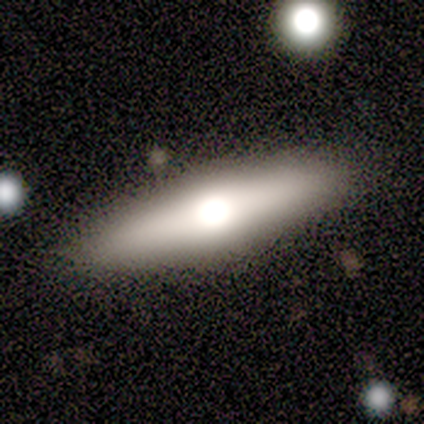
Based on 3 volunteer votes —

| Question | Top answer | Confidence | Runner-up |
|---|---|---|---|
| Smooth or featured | featured or disk | 100% | — |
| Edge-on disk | yes | 100% | — |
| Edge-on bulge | rounded | 100% | — |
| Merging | none | 67% | major disturbance (33%) |